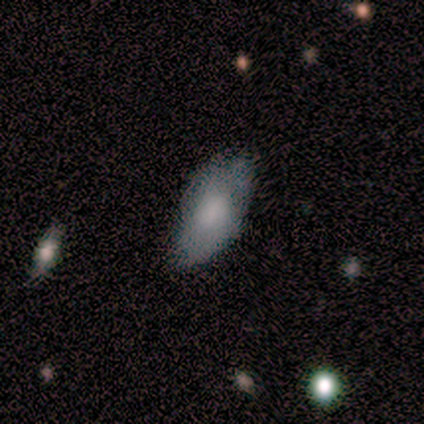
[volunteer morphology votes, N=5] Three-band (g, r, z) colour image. It shows a smooth galaxy with no disk features (80%) that is in between round and cigar-shaped (100%). Merging: none (75%).